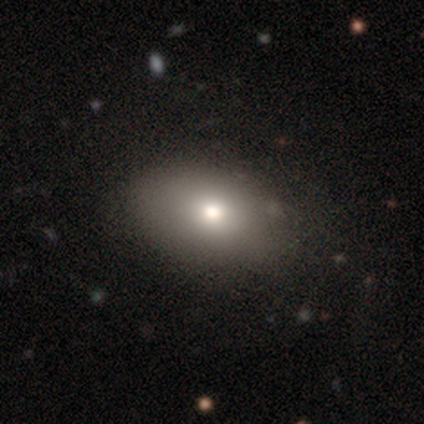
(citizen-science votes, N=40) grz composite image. It shows a smooth galaxy with no disk features (88%) that is in between round and cigar-shaped (77%). Merging: none (82%).